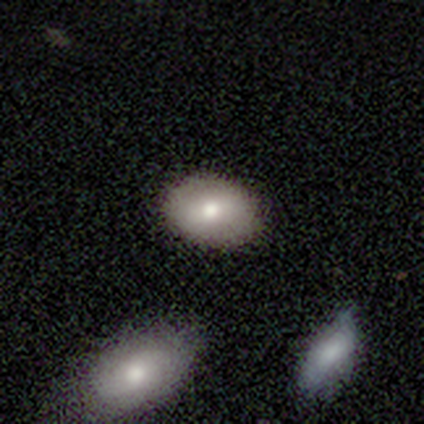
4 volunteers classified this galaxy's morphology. smooth 75%, featured or disk 25%, star or artifact 0%. Down the decision tree: how rounded — in between (100%); merging — none (100%).